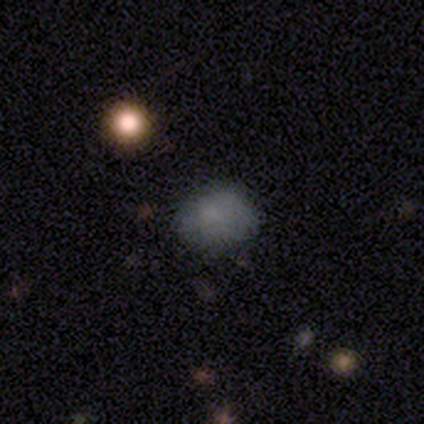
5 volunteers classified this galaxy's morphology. smooth_or_featured: smooth (p=0.60) [alt: star or artifact p=0.40]
how_rounded: in between (p=1.00)
merging: minor disturbance (p=0.67) [alt: none p=0.33]